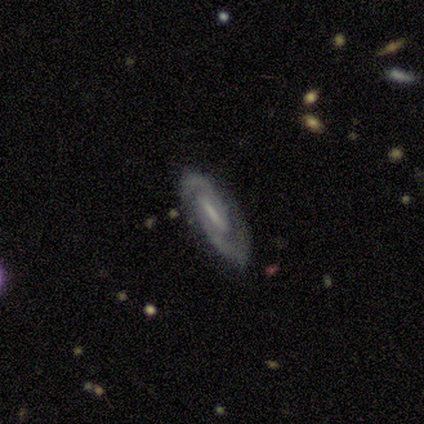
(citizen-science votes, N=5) A featured or disk galaxy (100%) with a strong bar (60%), 2 (100%) tight (60%) spiral arms (100%) and a small central bulge (40%, tied with none). Merging: none (100%).